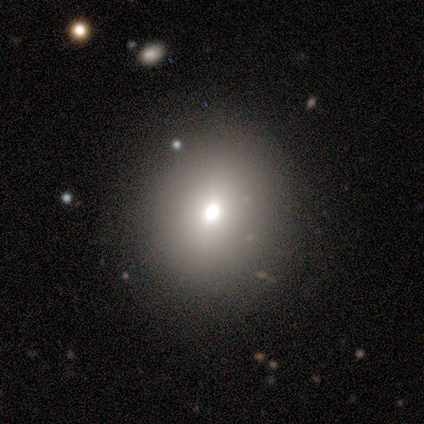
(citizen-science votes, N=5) Morphology: type=smooth (60%); roundness=round (100%); merging=none (100%).